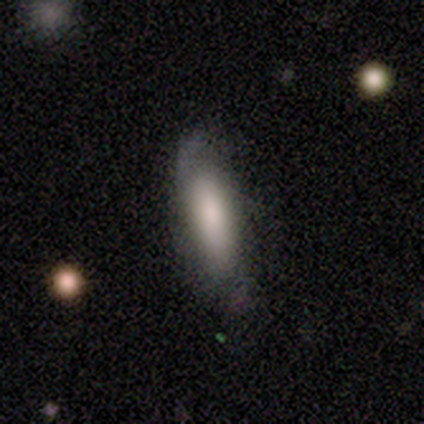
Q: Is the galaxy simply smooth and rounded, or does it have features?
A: smooth — 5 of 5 (100%).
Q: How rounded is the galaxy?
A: in between — 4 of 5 (80%).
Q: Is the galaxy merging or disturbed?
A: none — 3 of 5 (60%).